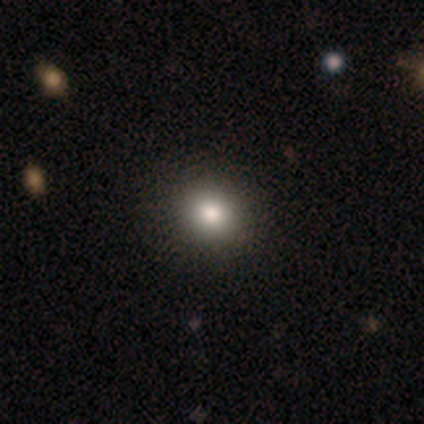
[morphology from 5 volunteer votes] Smooth or featured: smooth — 80% (star or artifact — 20%)
How rounded: round — 75% (in between — 25%)
Merging: none — 100%